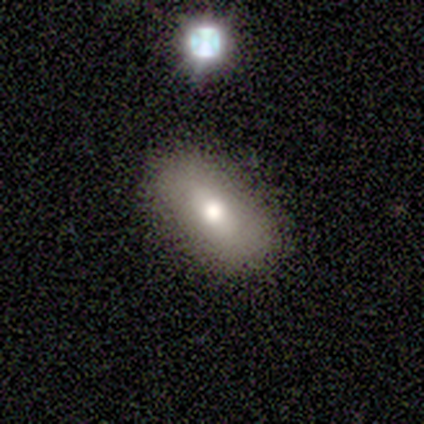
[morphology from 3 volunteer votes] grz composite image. It shows a smooth galaxy with no disk features (100%) that is in between round and cigar-shaped (100%). Merging: none (100%).